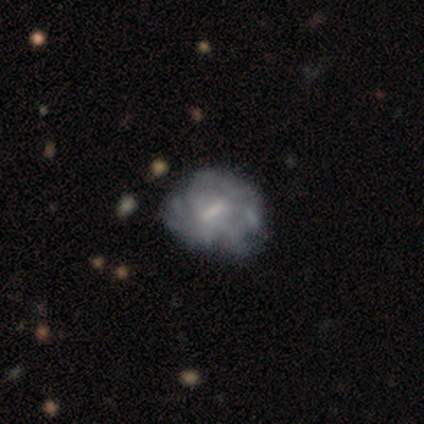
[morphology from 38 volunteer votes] Volunteers were most divided on "spiral arms": yes: 55%, no: 45%. Remaining: edge-on disk — no (100%); spiral arm count — can't tell (94%); smooth or featured — featured or disk (76%); bar — weak (69%); spiral winding — medium (50%); bulge size — none (45%); merging — none (32%).